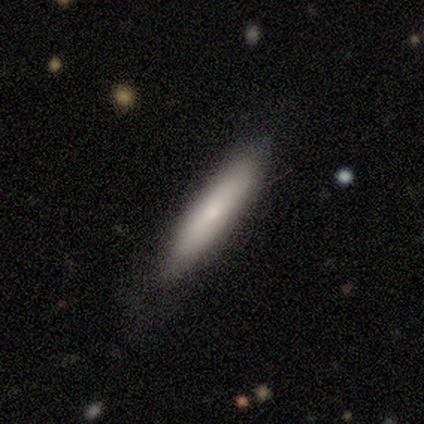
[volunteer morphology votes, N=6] A smooth galaxy with no disk features (67%) that is cigar-shaped (75%).

Vote fractions:
- Smooth or featured? smooth: 67% / featured or disk: 33% / star or artifact: 0%
- How rounded? cigar-shaped: 75% / in between: 25% / round: 0%
- Merging? none: 67% / minor disturbance: 33% / major disturbance: 0% / merger: 0%